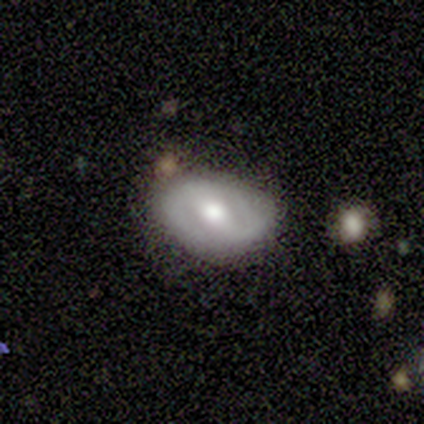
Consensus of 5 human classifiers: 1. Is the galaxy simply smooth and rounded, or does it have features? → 100% featured or disk, 0% smooth, 0% star or artifact.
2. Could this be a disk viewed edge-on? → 100% no, 0% yes.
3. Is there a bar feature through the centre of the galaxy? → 40% strong (tied), 40% no (tied), 20% weak.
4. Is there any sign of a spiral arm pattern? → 60% yes, 40% no.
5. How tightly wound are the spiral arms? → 100% medium, 0% tight, 0% loose.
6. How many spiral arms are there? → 100% 2, 0% 1, 0% 3, 0% 4, 0% more than 4, 0% can't tell.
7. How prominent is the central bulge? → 100% moderate, 0% dominant, 0% large, 0% small, 0% none.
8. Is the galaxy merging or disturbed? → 100% none, 0% minor disturbance, 0% major disturbance, 0% merger.